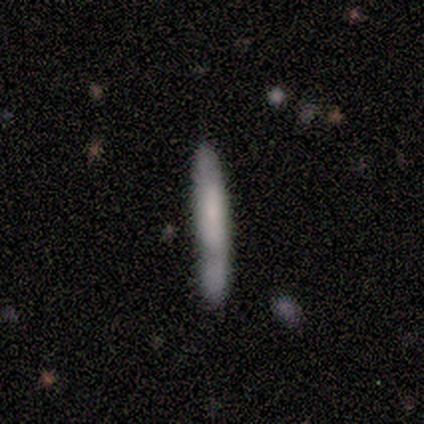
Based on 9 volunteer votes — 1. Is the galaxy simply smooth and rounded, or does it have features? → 67% smooth, 22% featured or disk, 11% star or artifact.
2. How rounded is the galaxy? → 100% cigar-shaped, 0% round, 0% in between.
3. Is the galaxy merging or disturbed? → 75% none, 12% minor disturbance, 12% merger, 0% major disturbance.